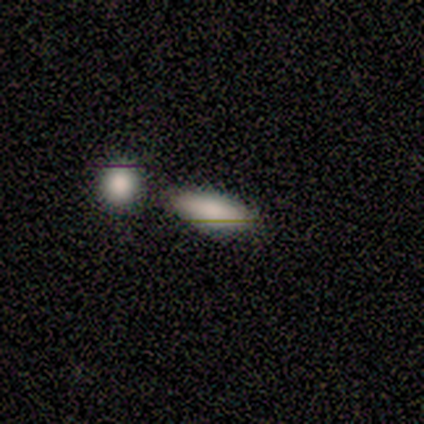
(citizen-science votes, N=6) smooth_or_featured: smooth (p=0.50) [tied with: featured or disk p=0.50]
how_rounded: in between (p=0.67) [alt: cigar-shaped p=0.33]
merging: none (p=0.83) [alt: minor disturbance p=0.17]